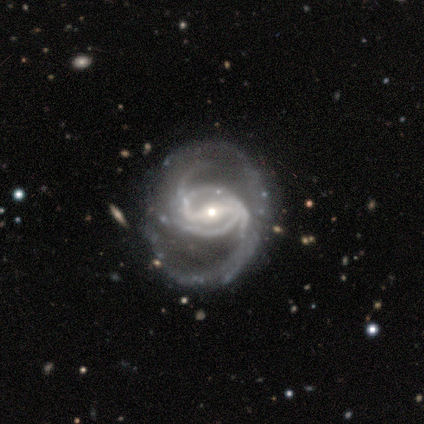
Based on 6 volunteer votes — smooth_or_featured: featured or disk (p=1.00)
disk_edge_on: no (p=1.00)
bar: strong (p=0.67) [alt: weak p=0.33]
has_spiral_arms: yes (p=1.00)
spiral_winding: medium (p=0.50) [alt: loose p=0.33]
spiral_arm_count: 2 (p=0.50) [alt: can't tell p=0.33]
bulge_size: small (p=0.50) [alt: moderate p=0.33]
merging: none (p=0.50) [alt: major disturbance p=0.33]